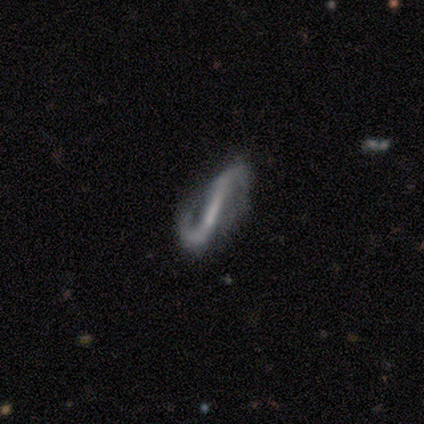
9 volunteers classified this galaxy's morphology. Smooth or featured? 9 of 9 (100%) said featured or disk. Edge-on disk? 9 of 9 (100%) said no. Bar? 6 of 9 (67%) said strong. Spiral arms? 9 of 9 (100%) said yes. Spiral winding? 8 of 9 (89%) said loose. Spiral arm count? 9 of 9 (100%) said 2. Bulge size? 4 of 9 (44%, tied with none) said small. Merging? 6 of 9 (67%) said none.